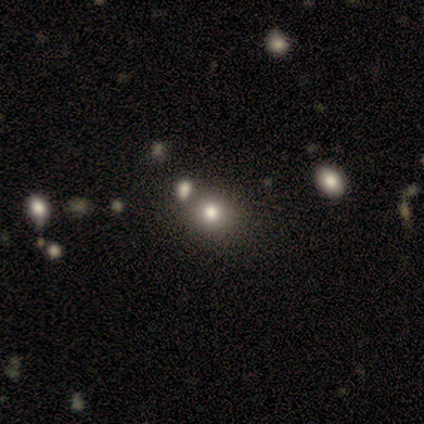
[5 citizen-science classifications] Smooth or featured: smooth — 80% (featured or disk — 20%)
How rounded: round — 75% (in between — 25%)
Merging: none — 80% (merger — 20%)